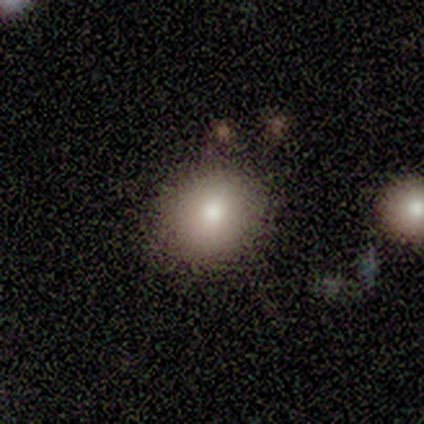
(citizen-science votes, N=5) smooth 60%, featured or disk 20%, star or artifact 20%. Down the decision tree: how rounded — round (67%); merging — none (100%).